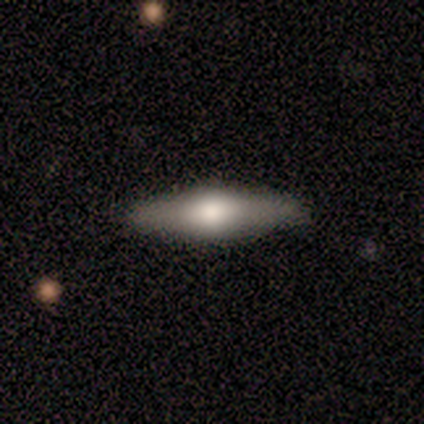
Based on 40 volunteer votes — Morphology: type=featured or disk (57%); edge-on=yes (96%); edge-on bulge=rounded (95%); merging=none (97%).